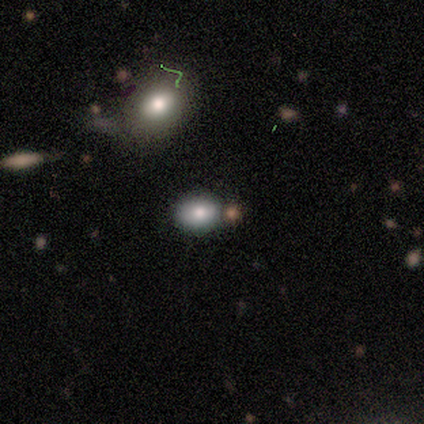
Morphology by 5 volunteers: A smooth galaxy with no disk features (60%) that is in between round and cigar-shaped (67%).

Vote fractions:
- Smooth or featured? smooth: 60% / featured or disk: 20% / star or artifact: 20%
- How rounded? in between: 67% / round: 33% / cigar-shaped: 0%
- Merging? none: 75% / minor disturbance: 25% / major disturbance: 0% / merger: 0%